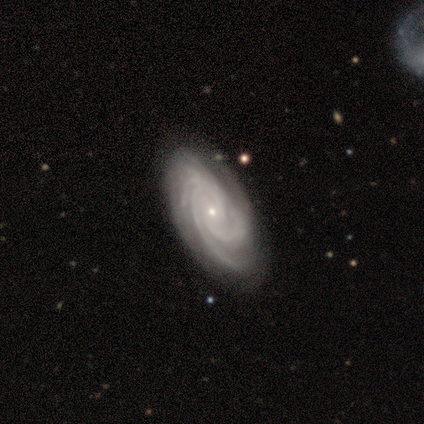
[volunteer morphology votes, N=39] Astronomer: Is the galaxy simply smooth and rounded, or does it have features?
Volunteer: featured or disk — 100%.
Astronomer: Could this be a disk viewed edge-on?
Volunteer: no — 97%.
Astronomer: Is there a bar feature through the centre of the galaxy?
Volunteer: no — 74%.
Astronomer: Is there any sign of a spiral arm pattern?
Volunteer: yes — 100%.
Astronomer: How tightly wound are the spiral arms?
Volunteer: tight — 71%.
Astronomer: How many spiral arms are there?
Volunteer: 4 — 34% (runner-up: 3, 29%).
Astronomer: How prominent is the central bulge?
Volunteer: small — 87%.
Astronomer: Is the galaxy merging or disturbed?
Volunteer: none — 59%.